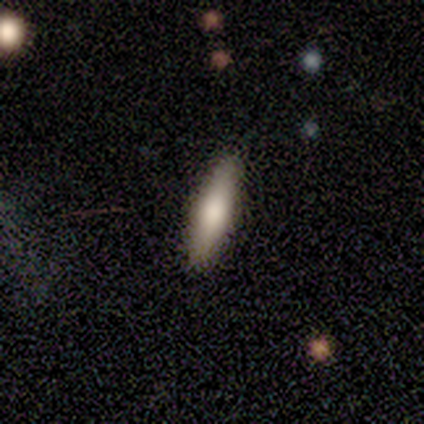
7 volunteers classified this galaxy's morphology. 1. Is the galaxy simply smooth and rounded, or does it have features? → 86% smooth, 14% featured or disk, 0% star or artifact.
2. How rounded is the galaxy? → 83% cigar-shaped, 17% in between, 0% round.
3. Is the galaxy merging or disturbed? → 100% none, 0% minor disturbance, 0% major disturbance, 0% merger.